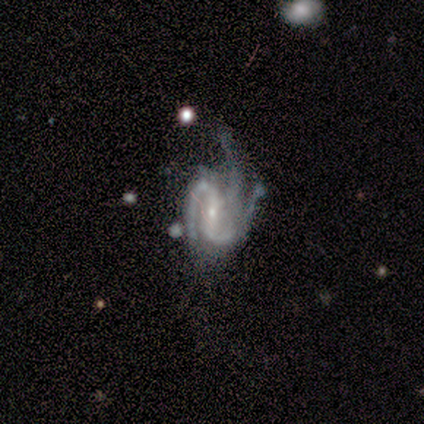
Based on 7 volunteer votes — This is clearly a featured or disk galaxy (100%). It is clearly not viewed edge-on (86%). Bar: possibly weak (50%). Spiral arm pattern: clearly yes (100%). Spiral arm count: possibly 2 (50%, tied with 3). Spiral winding: possibly tight (50%, tied with medium). Central bulge: clearly small (83%). Merging: possibly minor disturbance (57%).